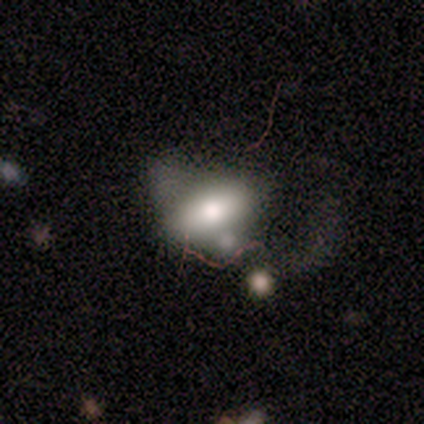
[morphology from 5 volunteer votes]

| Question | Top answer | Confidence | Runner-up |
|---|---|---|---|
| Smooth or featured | smooth | 100% | — |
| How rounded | in between | 100% | — |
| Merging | none | 40% | tied: minor disturbance (40%) |